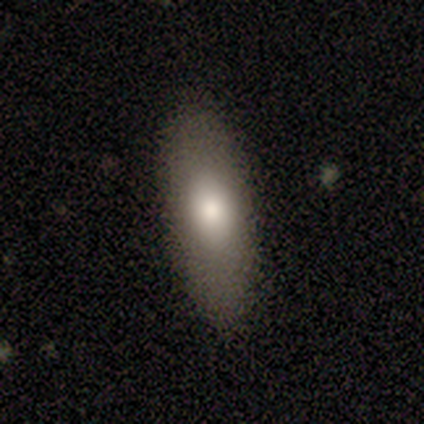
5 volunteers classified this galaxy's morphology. Smooth or featured? 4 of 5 (80%) said smooth. How rounded? 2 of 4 (50%, tied with cigar-shaped) said in between. Merging? 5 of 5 (100%) said none.